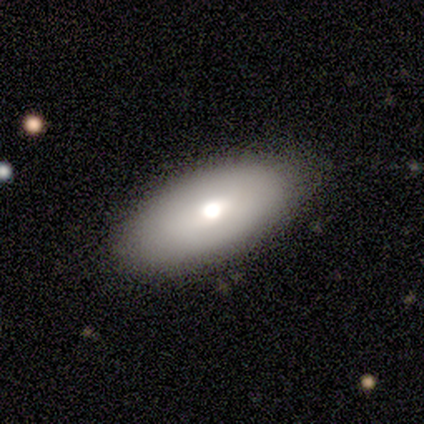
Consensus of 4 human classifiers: Volunteers were most divided on "how rounded": in between: 67%, round: 33%, cigar-shaped: 0%. More confident: merging — none (100%); smooth or featured — smooth (75%).